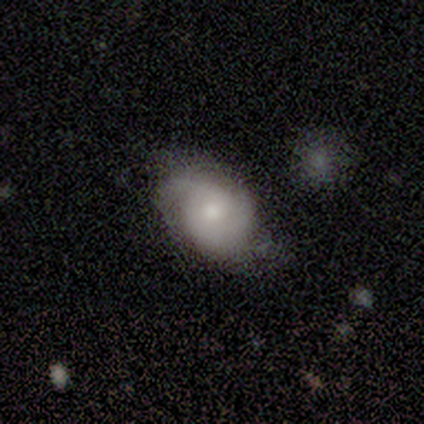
Smooth or featured?
  - smooth: 60% *
  - featured or disk: 40%
  - star or artifact: 0%
How rounded?
  - in between: 67% *
  - round: 33%
  - cigar-shaped: 0%
Merging?
  - none: 80% *
  - minor disturbance: 20%
  - major disturbance: 0%
  - merger: 0%